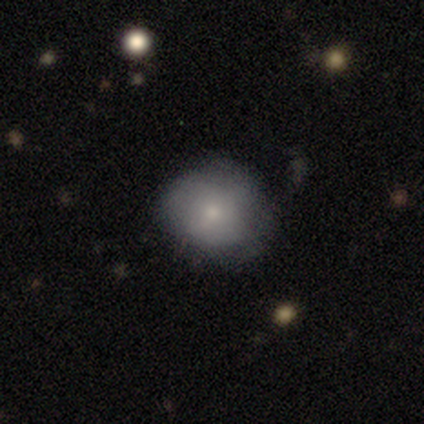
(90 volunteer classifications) smooth 70%, featured or disk 24%, star or artifact 6%. Down the decision tree: how rounded — round (81%); merging — none (64%).